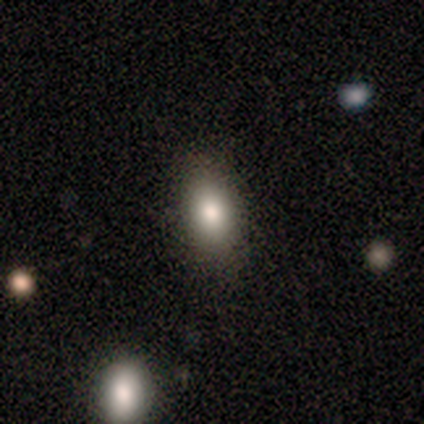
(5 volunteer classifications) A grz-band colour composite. It shows a star or artifact, not a galaxy (60%).